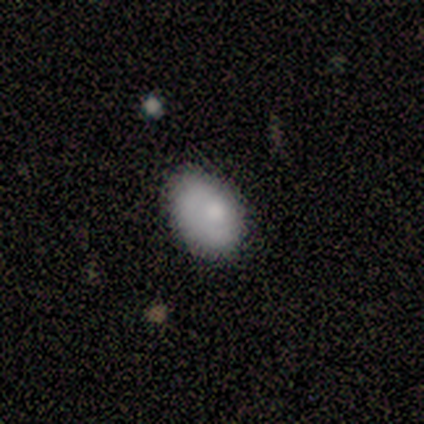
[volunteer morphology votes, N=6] Smooth or featured: smooth — 67% (featured or disk — 33%)
How rounded: in between — 100%
Merging: none — 67% (minor disturbance — 33%)